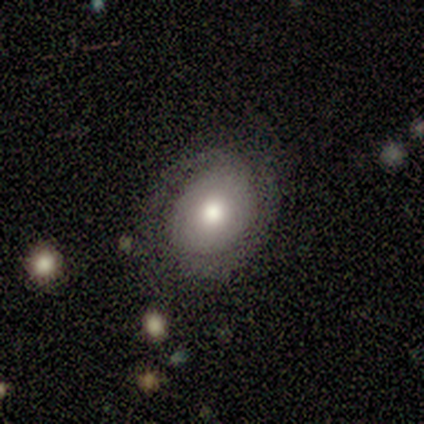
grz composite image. It shows a smooth galaxy with no disk features (67%) that is round (100%). Merging: none (67%).